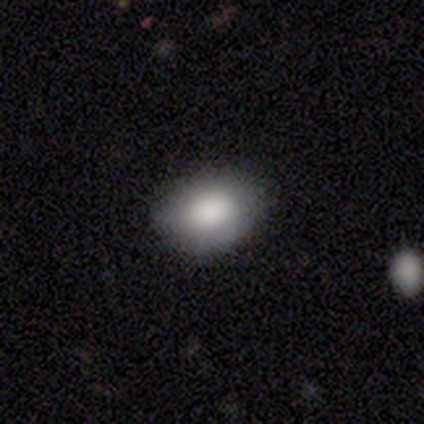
A smooth galaxy with no disk features (76%) that is in between round and cigar-shaped (86%).

Vote fractions:
- Smooth or featured? smooth: 76% / featured or disk: 16% / star or artifact: 8%
- How rounded? in between: 86% / round: 14% / cigar-shaped: 0%
- Merging? none: 71% / minor disturbance: 26% / major disturbance: 3% / merger: 0%